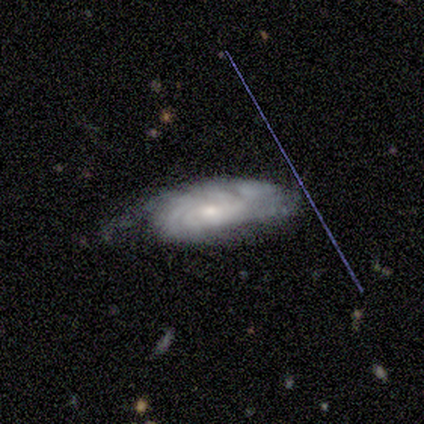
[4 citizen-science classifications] Q: Smooth or featured?
A: featured or disk (100%)
Q: Edge-on disk?
A: no (75%); runner-up: yes (25%)
Q: Bar?
A: no (67%); runner-up: weak (33%)
Q: Spiral arms?
A: yes (100%)
Q: Spiral winding?
A: tight (100%)
Q: Spiral arm count?
A: can't tell (67%); runner-up: 4 (33%)
Q: Bulge size?
A: small (67%); runner-up: moderate (33%)
Q: Merging?
A: none (75%); runner-up: major disturbance (25%)